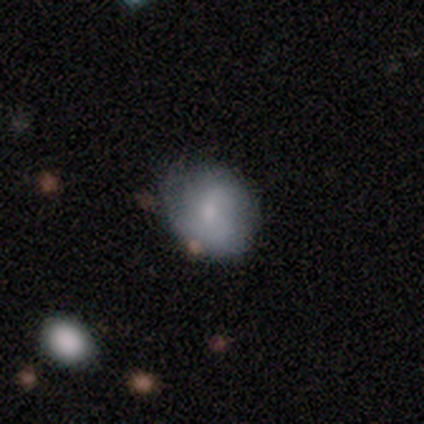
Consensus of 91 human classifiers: smooth 60%, featured or disk 33%, star or artifact 7%. Down the decision tree: how rounded — round (65%); merging — none (59%).